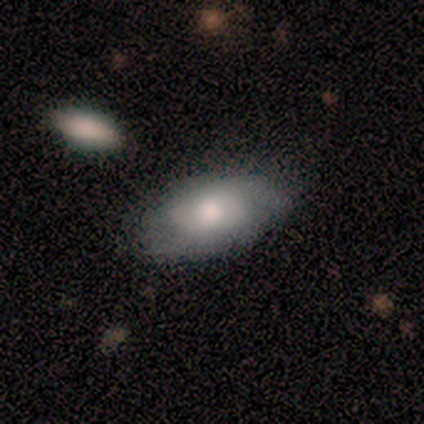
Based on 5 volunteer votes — This is likely a featured or disk galaxy (60%). It is clearly not viewed edge-on (100%). Bar: clearly no (100%). Spiral arm pattern: likely yes (67%). Spiral arm count: possibly 2 (50%, tied with 3). Spiral winding: possibly tight (50%, tied with medium). Central bulge: likely moderate (67%). Merging: clearly none (100%).